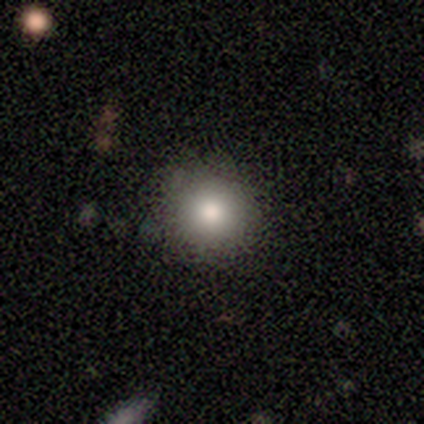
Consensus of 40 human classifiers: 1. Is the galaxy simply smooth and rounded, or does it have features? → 78% smooth, 18% star or artifact, 5% featured or disk.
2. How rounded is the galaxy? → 97% round, 3% in between, 0% cigar-shaped.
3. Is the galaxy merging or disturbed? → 94% none, 6% minor disturbance, 0% major disturbance, 0% merger.